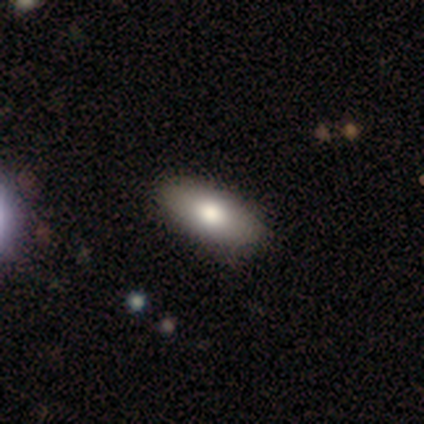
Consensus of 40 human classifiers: smooth_or_featured: smooth (p=0.78) [alt: featured or disk p=0.23]
how_rounded: in between (p=0.97) [alt: cigar-shaped p=0.03]
merging: none (p=0.82) [alt: minor disturbance p=0.03]